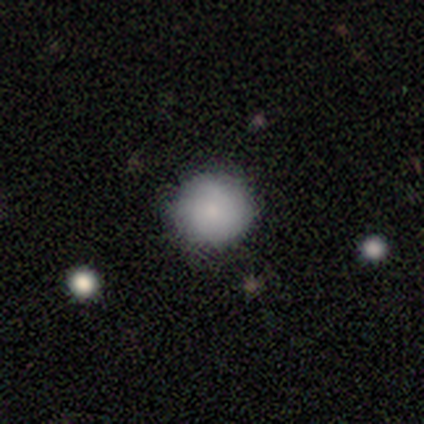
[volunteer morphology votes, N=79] Smooth or featured: smooth — 77% (featured or disk — 18%)
How rounded: round — 93% (in between — 7%)
Merging: none — 53% (minor disturbance — 8%)